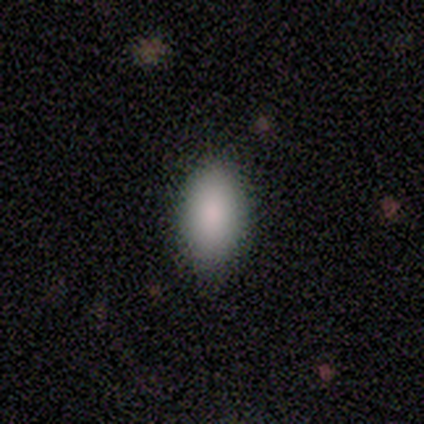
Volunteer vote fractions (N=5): This is clearly a smooth galaxy (100%). How rounded: clearly in between (80%). Merging: clearly none (100%).